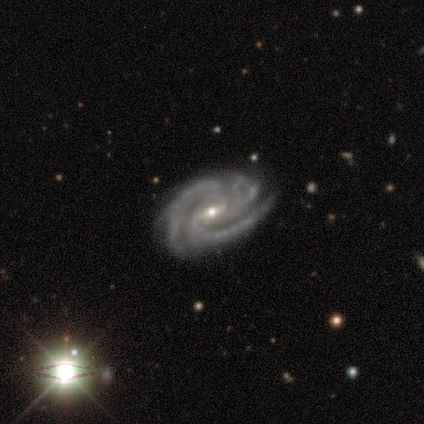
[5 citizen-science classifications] Smooth or featured? featured or disk (80%)
Edge-on disk? no (100%)
Bar? strong (100%)
Spiral arms? yes (100%)
Spiral winding? tight (75%)
Spiral arm count? 3 (50%)
Bulge size? small (75%)
Merging? none (100%)